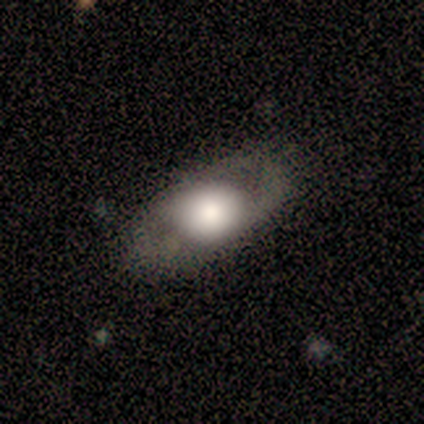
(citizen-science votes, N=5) smooth_or_featured: smooth (p=0.60) [alt: featured or disk p=0.40]
how_rounded: in between (p=1.00)
merging: none (p=1.00)